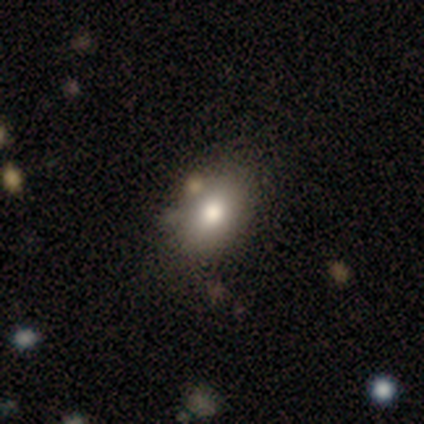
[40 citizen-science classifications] A smooth galaxy with no disk features (75%) that is in between round and cigar-shaped (83%). Merging: none (58%).